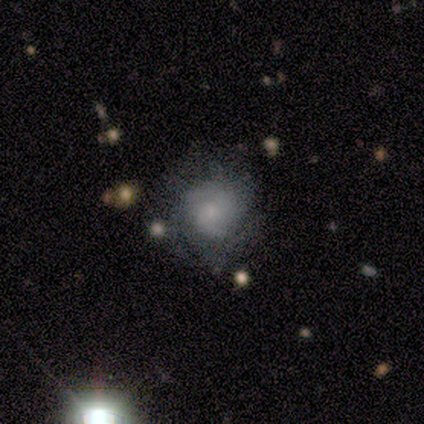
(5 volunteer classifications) Volunteers were most divided on "bar" (2-way tie): weak: 50%, no: 50%, strong: 0%; "spiral arms" (2-way tie): yes: 50%, no: 50%; "bulge size" (2-way tie): moderate: 50%, small: 50%, dominant: 0%, large: 0%, none: 0%. More confident: spiral winding — medium (100%); spiral arm count — 2 (100%); merging — none (75%); edge-on disk — no (67%); smooth or featured — featured or disk (60%).